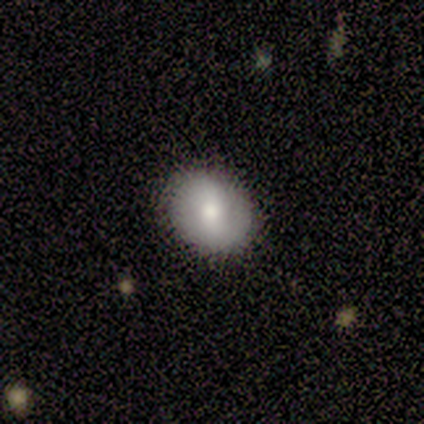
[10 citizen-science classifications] This is likely a smooth galaxy (70%). How rounded: likely round (71%). Merging: clearly none (100%).